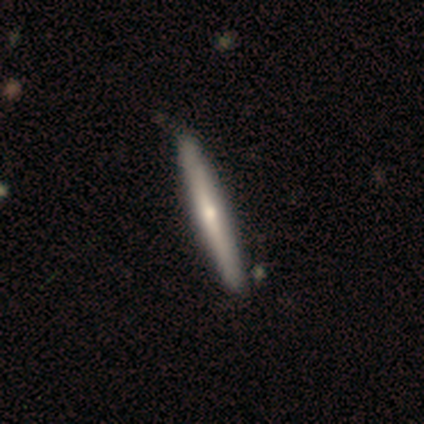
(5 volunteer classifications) smooth-or-featured: featured or disk: 60% | smooth: 40% | star or artifact: 0%
  disk-edge-on: yes: 100% | no: 0%
    edge-on-bulge: rounded: 100% | boxy: 0% | none: 0%
  merging: none: 60% | minor disturbance: 20% | merger: 20% | major disturbance: 0%